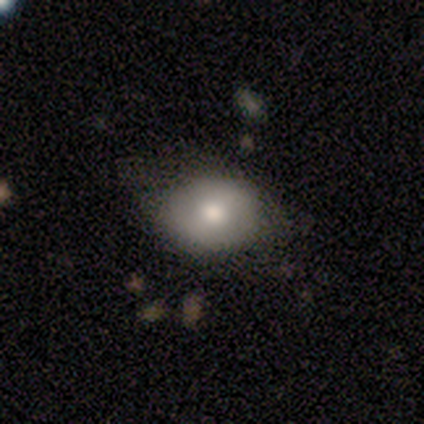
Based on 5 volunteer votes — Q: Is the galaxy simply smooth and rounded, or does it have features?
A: smooth — 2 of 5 (40%, tied with star or artifact).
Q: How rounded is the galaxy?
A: round — 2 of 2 (100%).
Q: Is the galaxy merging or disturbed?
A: none — 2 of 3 (67%).